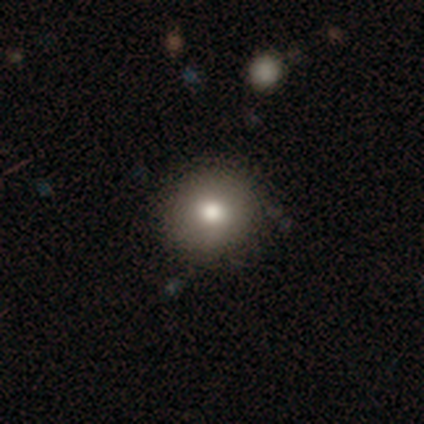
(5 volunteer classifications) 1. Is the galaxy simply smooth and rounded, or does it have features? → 60% smooth, 20% featured or disk, 20% star or artifact.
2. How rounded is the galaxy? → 67% round, 33% in between, 0% cigar-shaped.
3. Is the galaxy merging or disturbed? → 25% none (tied), 25% minor disturbance (tied), 25% major disturbance (tied), 25% merger (tied).